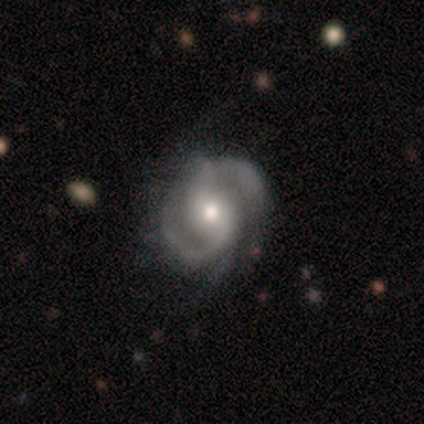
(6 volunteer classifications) Morphology: type=featured or disk (100%); edge-on=no (100%); bar=no (67%); spiral arms=yes (100%); winding=tight (67%); arm count=2 (50%); bulge=moderate (100%); merging=none (50%).